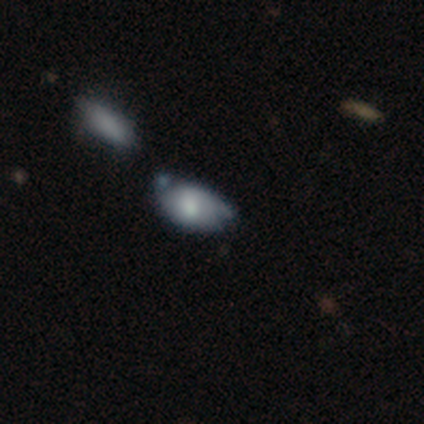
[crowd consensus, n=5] Q: Smooth or featured?
A: smooth (40%); tied with: featured or disk (40%)
Q: How rounded?
A: in between (100%)
Q: Merging?
A: minor disturbance (75%); runner-up: merger (25%)